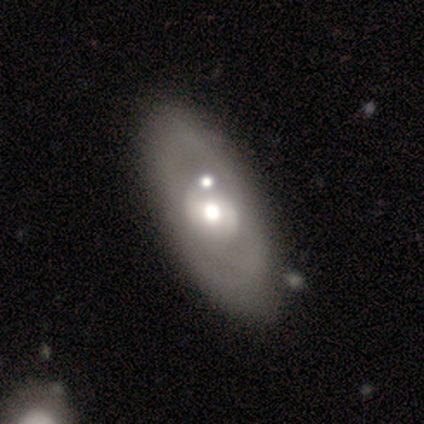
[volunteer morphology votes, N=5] A smooth galaxy with no disk features (40%, tied with featured or disk) that is in between round and cigar-shaped (100%).

Vote fractions:
- Smooth or featured? smooth: 40% (tied) / featured or disk: 40% (tied) / star or artifact: 20%
- How rounded? in between: 100% / round: 0% / cigar-shaped: 0%
- Merging? none: 75% / minor disturbance: 25% / major disturbance: 0% / merger: 0%